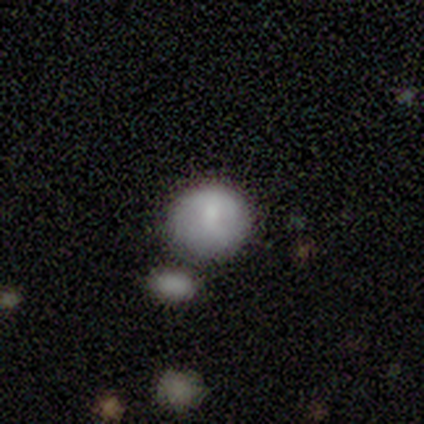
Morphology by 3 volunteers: A smooth galaxy with no disk features (67%) that is round (50%, tied with in between).

Vote fractions:
- Smooth or featured? smooth: 67% / star or artifact: 33% / featured or disk: 0%
- How rounded? round: 50% (tied) / in between: 50% (tied) / cigar-shaped: 0%
- Merging? minor disturbance: 100% / none: 0% / major disturbance: 0% / merger: 0%